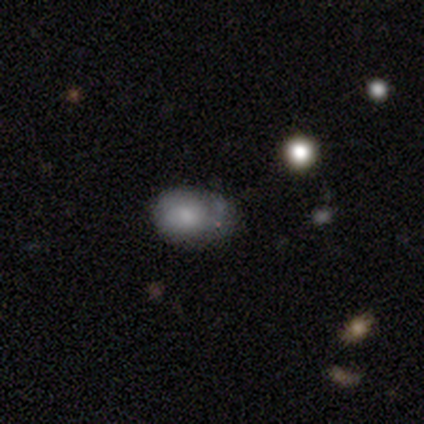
Smooth or featured: smooth — 80% (featured or disk — 20%)
How rounded: in between — 75% (round — 25%)
Merging: minor disturbance — 60% (none — 40%)